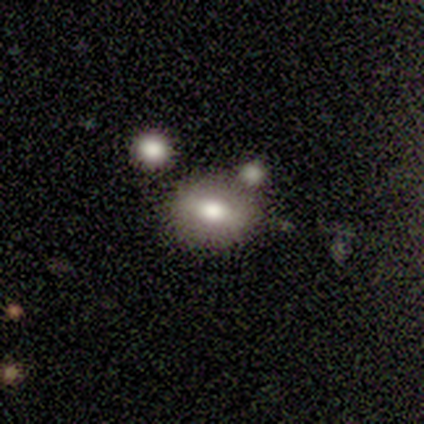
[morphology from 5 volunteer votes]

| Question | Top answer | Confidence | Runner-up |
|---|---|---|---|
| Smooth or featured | smooth | 60% | featured or disk (20%) |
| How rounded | in between | 100% | — |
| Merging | none | 75% | minor disturbance (25%) |